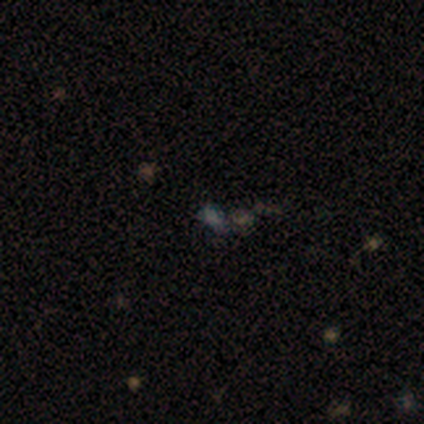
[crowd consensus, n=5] Volunteers were most divided on "smooth or featured" (2-way tie): smooth: 40%, star or artifact: 40%, featured or disk: 20%; "how rounded" (2-way tie): round: 50%, in between: 50%, cigar-shaped: 0%. More confident: merging — none (100%).